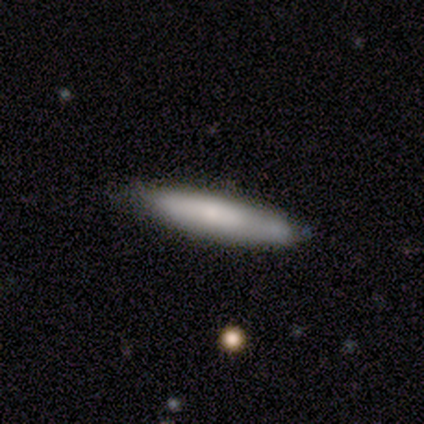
A smooth galaxy with no disk features (80%) that is in between round and cigar-shaped (50%, tied with cigar-shaped).

Vote fractions:
- Smooth or featured? smooth: 80% / star or artifact: 20% / featured or disk: 0%
- How rounded? in between: 50% (tied) / cigar-shaped: 50% (tied) / round: 0%
- Merging? minor disturbance: 50% / none: 25% / major disturbance: 25% / merger: 0%